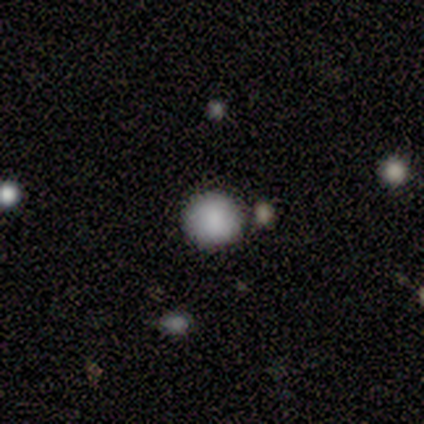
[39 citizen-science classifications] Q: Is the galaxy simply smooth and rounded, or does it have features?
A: smooth — 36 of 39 (92%).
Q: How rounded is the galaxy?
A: round — 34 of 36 (94%).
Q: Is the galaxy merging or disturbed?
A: none — 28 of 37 (76%).